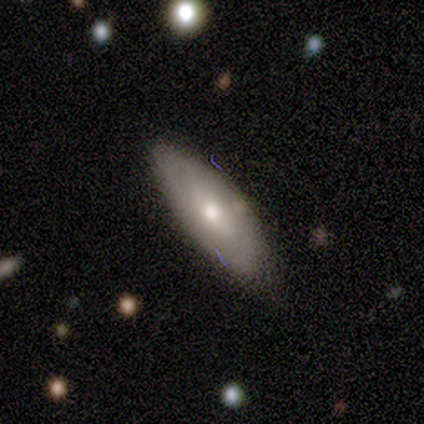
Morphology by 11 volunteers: type=smooth (55%); roundness=in between (83%); merging=minor disturbance (75%).